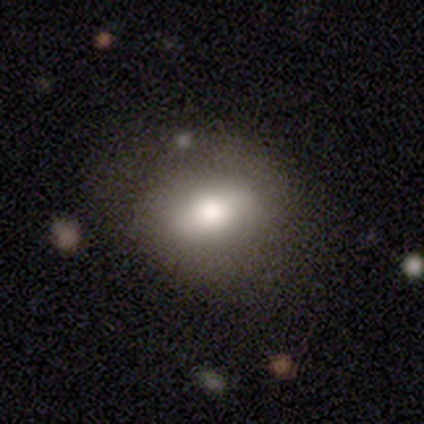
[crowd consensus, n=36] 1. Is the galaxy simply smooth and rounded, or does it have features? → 69% smooth, 28% featured or disk, 3% star or artifact.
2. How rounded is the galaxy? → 56% in between, 40% round, 4% cigar-shaped.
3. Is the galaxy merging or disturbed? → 74% none, 14% minor disturbance, 9% merger, 3% major disturbance.